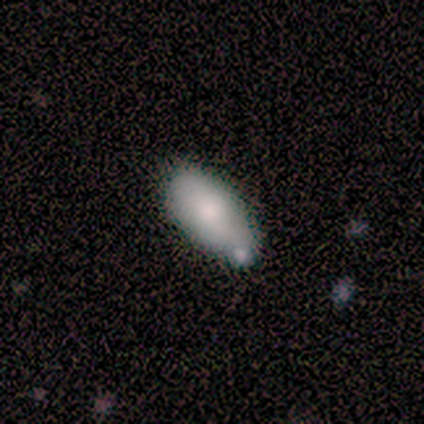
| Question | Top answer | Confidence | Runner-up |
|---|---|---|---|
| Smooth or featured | smooth | 50% | tied: featured or disk (50%) |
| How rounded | in between | 100% | — |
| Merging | minor disturbance | 50% | none (25%) |